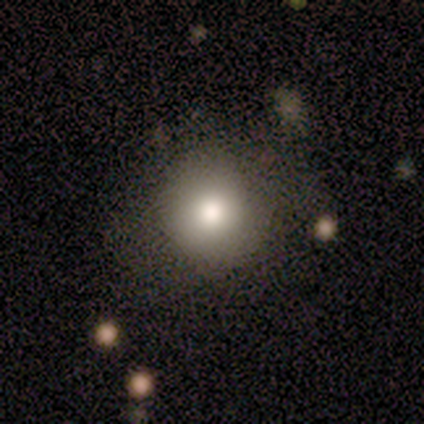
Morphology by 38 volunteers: type=smooth (84%); roundness=round (94%); merging=none (71%).